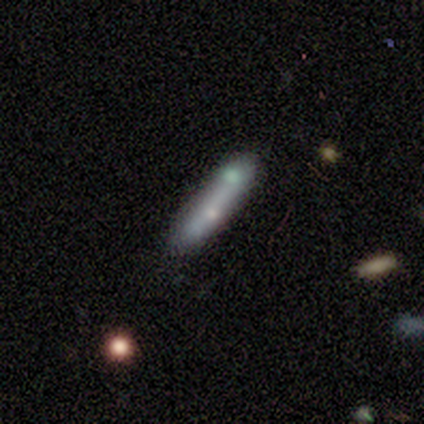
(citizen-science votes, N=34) Smooth or featured? 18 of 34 (53%) said smooth. How rounded? 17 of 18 (94%) said cigar-shaped. Merging? 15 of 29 (52%) said none.